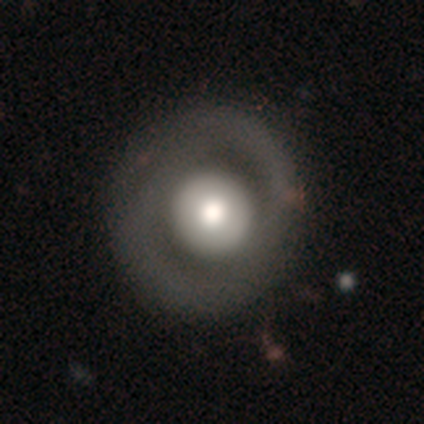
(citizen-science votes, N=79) smooth-or-featured: smooth: 52% | featured or disk: 47% | star or artifact: 1%
  how-rounded: round: 98% | in between: 2% | cigar-shaped: 0%
  merging: none: 35% | minor disturbance: 8% | major disturbance: 6% | merger: 1%